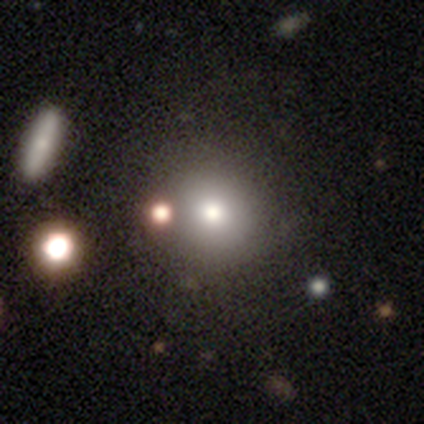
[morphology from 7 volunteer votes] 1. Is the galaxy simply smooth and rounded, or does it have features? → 100% smooth, 0% featured or disk, 0% star or artifact.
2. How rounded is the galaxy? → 100% round, 0% in between, 0% cigar-shaped.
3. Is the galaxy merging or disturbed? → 43% none, 29% merger, 14% minor disturbance, 14% major disturbance.